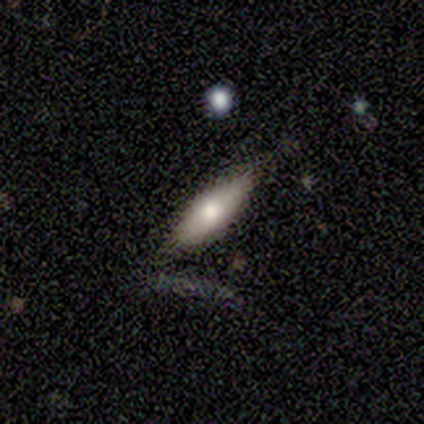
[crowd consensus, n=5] Smooth or featured?
  - smooth: 60% *
  - featured or disk: 40%
  - star or artifact: 0%
How rounded?
  - in between: 67% *
  - cigar-shaped: 33%
  - round: 0%
Merging?
  - none: 80% *
  - minor disturbance: 20%
  - major disturbance: 0%
  - merger: 0%